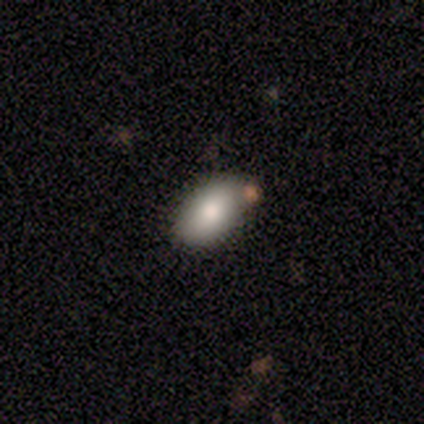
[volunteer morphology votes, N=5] This appears to be a smooth galaxy with no disk features (100%) that is in between round and cigar-shaped (100%). Merging: none (80%).